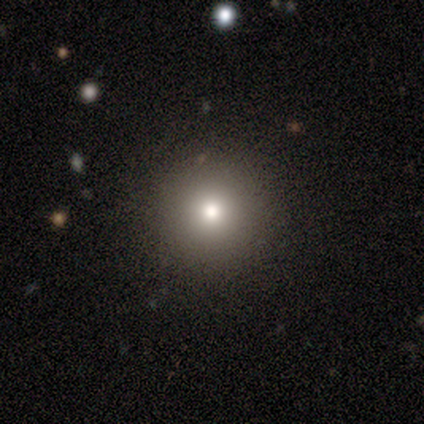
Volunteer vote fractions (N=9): Smooth or featured? smooth (78%)
How rounded? round (100%)
Merging? none (100%)